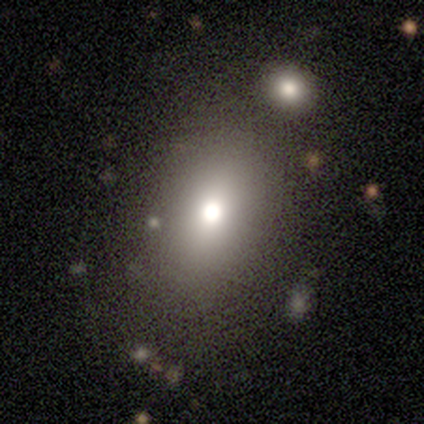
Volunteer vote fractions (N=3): Smooth or featured: smooth — 67% (featured or disk — 33%)
How rounded: round — 100%
Merging: none — 100%